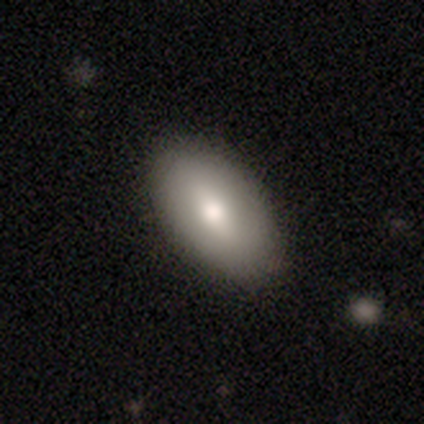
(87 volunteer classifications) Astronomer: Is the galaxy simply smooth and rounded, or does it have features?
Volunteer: smooth — 69%.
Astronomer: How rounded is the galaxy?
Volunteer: in between — 93%.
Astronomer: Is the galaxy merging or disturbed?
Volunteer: none — 93%.